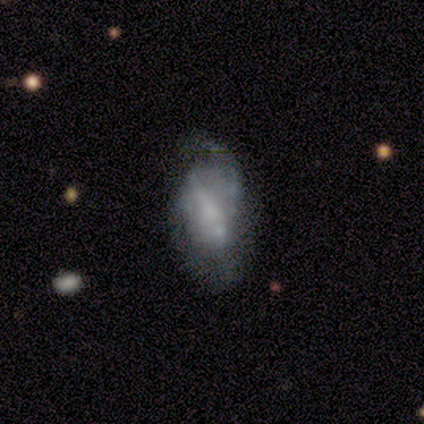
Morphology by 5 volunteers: Smooth or featured? 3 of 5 (60%) said featured or disk. Edge-on disk? 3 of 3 (100%) said no. Bar? 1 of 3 (33%, tied with weak and no) said strong. Spiral arms? 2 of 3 (67%) said yes. Spiral winding? 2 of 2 (100%) said medium. Spiral arm count? 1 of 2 (50%, tied with more than 4) said 2. Bulge size? 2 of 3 (67%) said none. Merging? 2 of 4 (50%, tied with minor disturbance) said none.